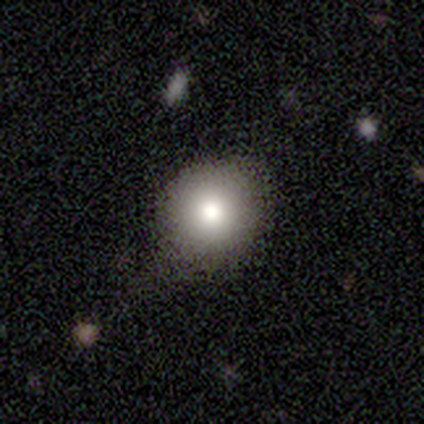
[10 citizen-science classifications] smooth 80%, featured or disk 10%, star or artifact 10%. Down the decision tree: how rounded — round (88%); merging — none (67%).